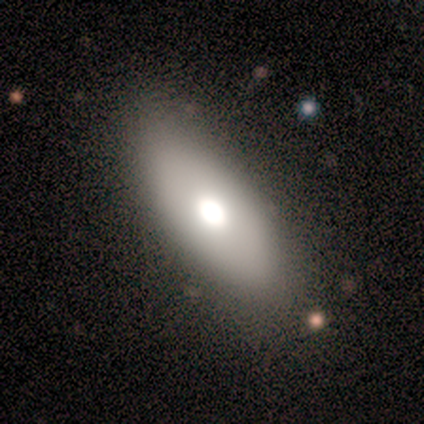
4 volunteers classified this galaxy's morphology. Q: Smooth or featured?
A: smooth (75%); runner-up: star or artifact (25%)
Q: How rounded?
A: in between (100%)
Q: Merging?
A: none (100%)